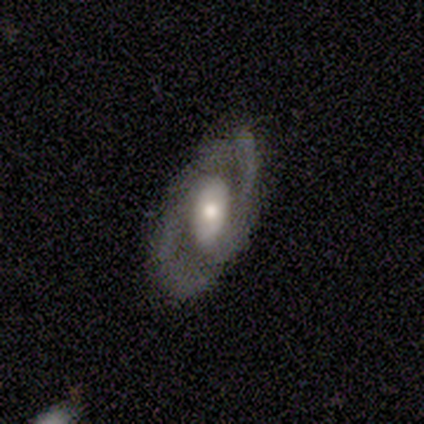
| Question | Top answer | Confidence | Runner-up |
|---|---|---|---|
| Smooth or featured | featured or disk | 67% | smooth (33%) |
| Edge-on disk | no | 100% | — |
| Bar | no | 100% | — |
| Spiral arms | yes | 50% | tied: no (50%) |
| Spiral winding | medium | 100% | — |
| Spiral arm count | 2 | 100% | — |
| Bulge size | large | 100% | — |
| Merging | minor disturbance | 67% | none (33%) |